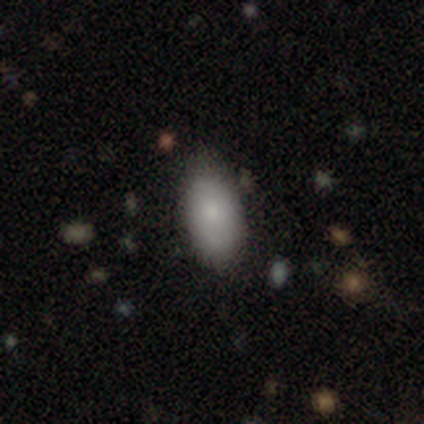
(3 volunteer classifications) Smooth or featured?
  - smooth: 33% * (tied)
  - featured or disk: 33% * (tied)
  - star or artifact: 33% * (tied)
How rounded?
  - round: 100% *
  - in between: 0%
  - cigar-shaped: 0%
Merging?
  - none: 50% * (tied)
  - minor disturbance: 50% * (tied)
  - major disturbance: 0%
  - merger: 0%